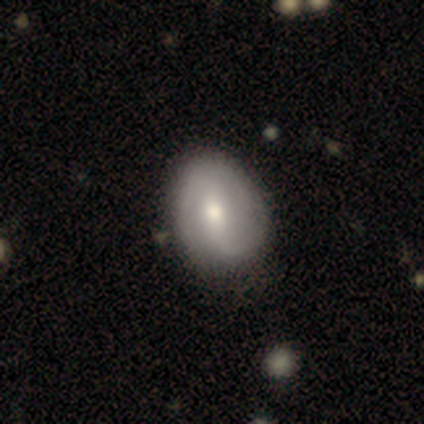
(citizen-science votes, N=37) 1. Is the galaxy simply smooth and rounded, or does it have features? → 70% featured or disk, 27% smooth, 3% star or artifact.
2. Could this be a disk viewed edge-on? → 100% no, 0% yes.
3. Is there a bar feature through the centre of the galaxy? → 46% weak, 27% strong, 27% no.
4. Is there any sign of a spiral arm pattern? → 88% yes, 12% no.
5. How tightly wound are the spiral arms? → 48% loose, 30% medium, 22% tight.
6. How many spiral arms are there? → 83% 2, 9% 1, 4% 3, 4% can't tell, 0% 4, 0% more than 4.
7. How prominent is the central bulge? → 54% moderate, 35% small, 8% large, 4% dominant, 0% none.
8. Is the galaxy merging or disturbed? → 53% none, 8% minor disturbance, 3% merger, 0% major disturbance.